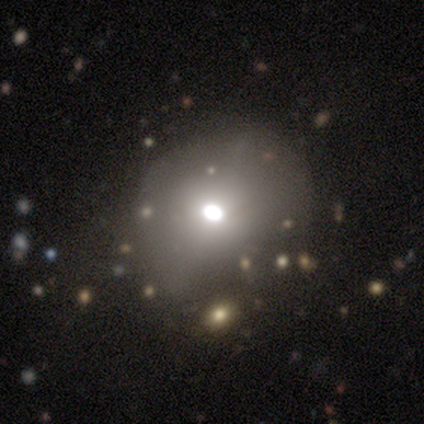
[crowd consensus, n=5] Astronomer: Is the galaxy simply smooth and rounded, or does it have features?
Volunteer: smooth — 60%.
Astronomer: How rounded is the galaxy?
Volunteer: round — 67%.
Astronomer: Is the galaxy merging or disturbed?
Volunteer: none — 75%.